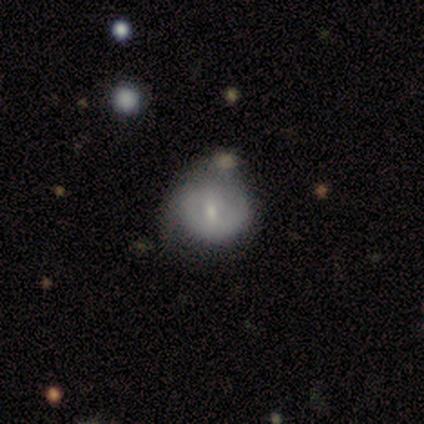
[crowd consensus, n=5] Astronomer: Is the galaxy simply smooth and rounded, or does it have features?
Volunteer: smooth — 80%.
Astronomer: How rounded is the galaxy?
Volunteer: round — 100%.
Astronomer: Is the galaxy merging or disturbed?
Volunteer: none — 40% (runner-up: minor disturbance, 20%).